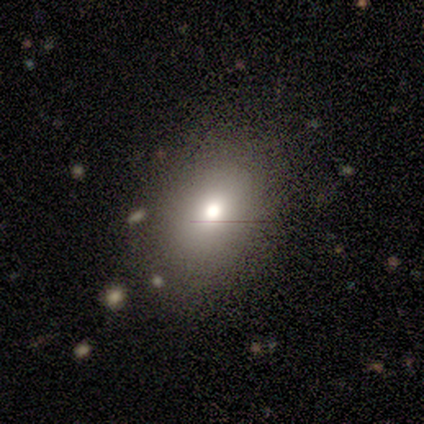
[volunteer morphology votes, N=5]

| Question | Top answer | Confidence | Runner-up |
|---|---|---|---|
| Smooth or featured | smooth | 60% | featured or disk (40%) |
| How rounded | in between | 67% | round (33%) |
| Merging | none | 100% | — |